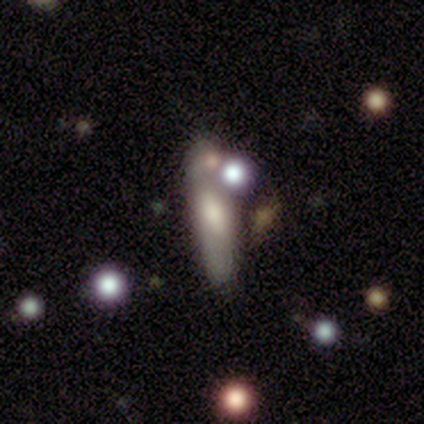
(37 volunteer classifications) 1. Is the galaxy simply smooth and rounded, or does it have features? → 62% smooth, 22% featured or disk, 16% star or artifact.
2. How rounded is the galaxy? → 74% cigar-shaped, 26% in between, 0% round.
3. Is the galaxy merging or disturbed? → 55% none, 26% merger, 16% major disturbance, 3% minor disturbance.